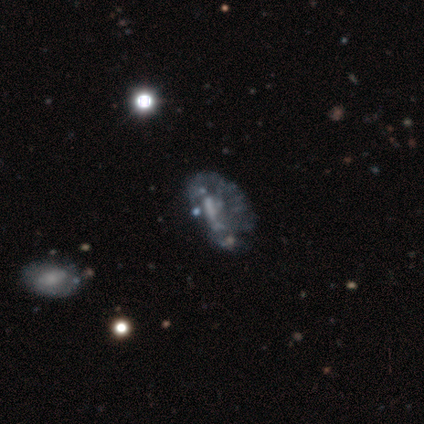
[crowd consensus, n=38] Volunteers were most divided on "bar": no: 46%, weak: 38%, strong: 17%. Remaining: edge-on disk — no (100%); spiral arms — no (79%); smooth or featured — featured or disk (63%); bulge size — none (50%); merging — none (42%).